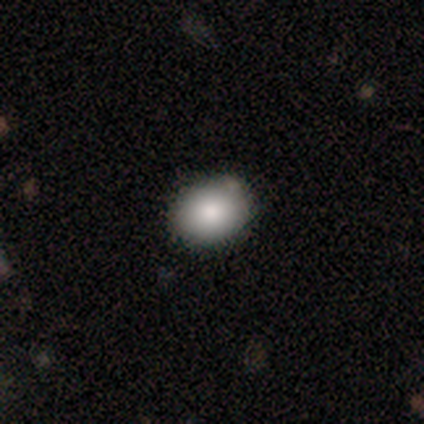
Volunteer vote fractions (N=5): Q: Smooth or featured?
A: smooth (100%)
Q: How rounded?
A: round (60%); runner-up: in between (40%)
Q: Merging?
A: none (100%)